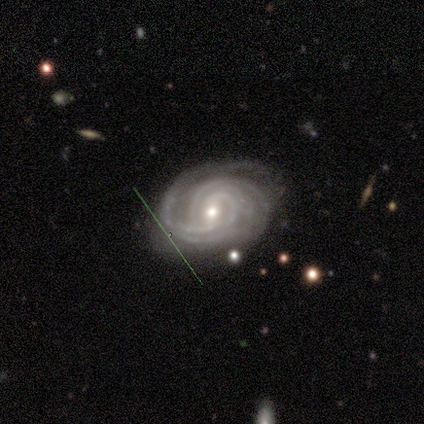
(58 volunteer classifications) Volunteers were most divided on "spiral arm count": can't tell: 33%, 4: 24%, 3: 18%, 2: 10%, more than 4: 10%, 1: 6%. More confident: edge-on disk — no (100%); spiral arms — yes (100%); smooth or featured — featured or disk (88%); spiral winding — tight (76%); merging — none (76%); bulge size — small (57%); bar — weak (57%).